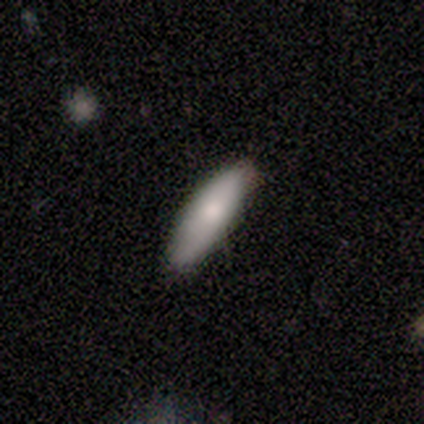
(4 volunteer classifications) Q: Smooth or featured?
A: smooth (75%); runner-up: featured or disk (25%)
Q: How rounded?
A: in between (67%); runner-up: cigar-shaped (33%)
Q: Merging?
A: none (75%); runner-up: minor disturbance (25%)